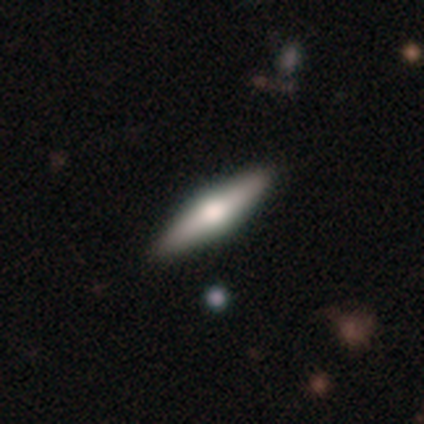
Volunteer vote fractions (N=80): smooth-or-featured: featured or disk: 52% | smooth: 38% | star or artifact: 10%
  disk-edge-on: yes: 98% | no: 2%
    edge-on-bulge: rounded: 88% | boxy: 10% | none: 2%
  merging: none: 47% | minor disturbance: 4% | major disturbance: 0% | merger: 0%